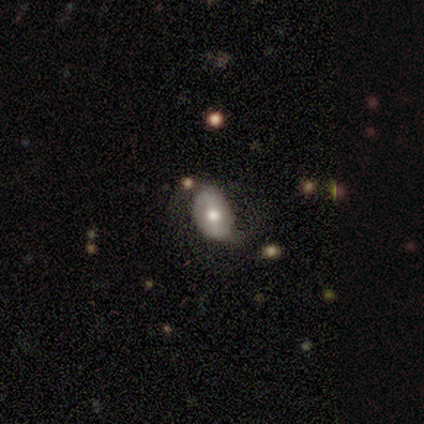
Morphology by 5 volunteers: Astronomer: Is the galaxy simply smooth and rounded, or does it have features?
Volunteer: smooth — 80%.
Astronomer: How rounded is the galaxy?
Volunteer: in between — 100%.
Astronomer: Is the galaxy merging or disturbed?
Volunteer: none — 40%, tied with minor disturbance at 40%.